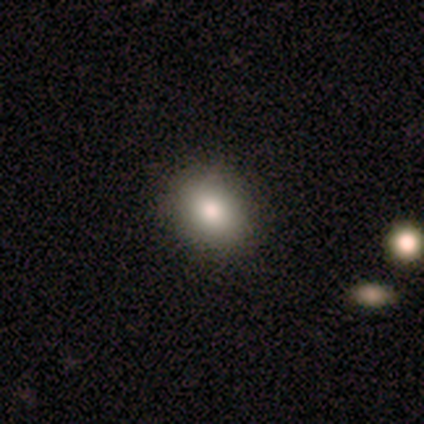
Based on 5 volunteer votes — smooth_or_featured: smooth (p=1.00)
how_rounded: in between (p=0.80) [alt: round p=0.20]
merging: none (p=1.00)